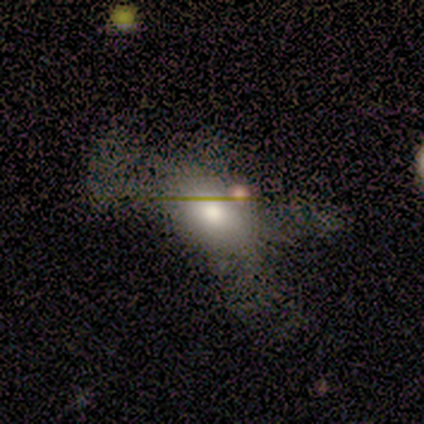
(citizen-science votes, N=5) Smooth or featured: smooth — 60% (featured or disk — 20%)
How rounded: in between — 100%
Merging: none — 75% (major disturbance — 25%)